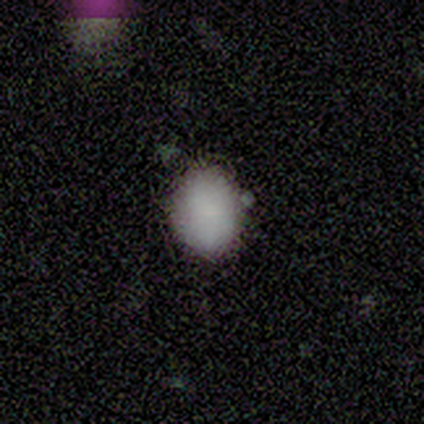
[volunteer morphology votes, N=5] Q: Smooth or featured?
A: smooth (100%)
Q: How rounded?
A: round (60%); runner-up: in between (40%)
Q: Merging?
A: none (100%)